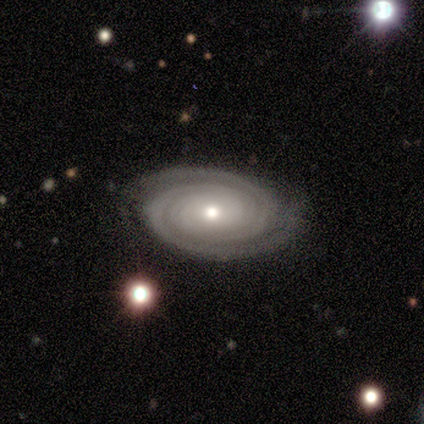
smooth_or_featured: featured or disk (p=0.98) [alt: smooth p=0.02]
disk_edge_on: no (p=1.00)
bar: no (p=0.89) [alt: weak p=0.09]
has_spiral_arms: yes (p=1.00)
spiral_winding: tight (p=0.92) [alt: medium p=0.08]
spiral_arm_count: 2 (p=0.81) [alt: can't tell p=0.13]
bulge_size: moderate (p=0.62) [alt: small p=0.34]
merging: none (p=0.89) [alt: minor disturbance p=0.09]